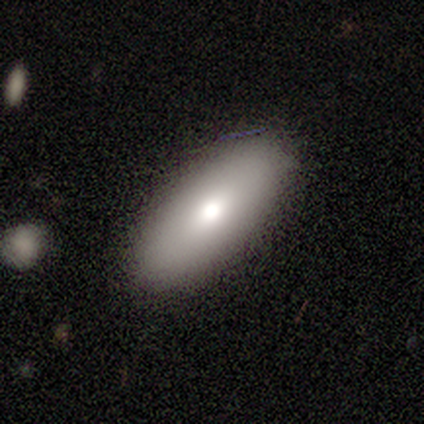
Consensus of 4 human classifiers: Smooth or featured?
  - smooth: 100% *
  - featured or disk: 0%
  - star or artifact: 0%
How rounded?
  - in between: 50% * (tied)
  - cigar-shaped: 50% * (tied)
  - round: 0%
Merging?
  - none: 100% *
  - minor disturbance: 0%
  - major disturbance: 0%
  - merger: 0%